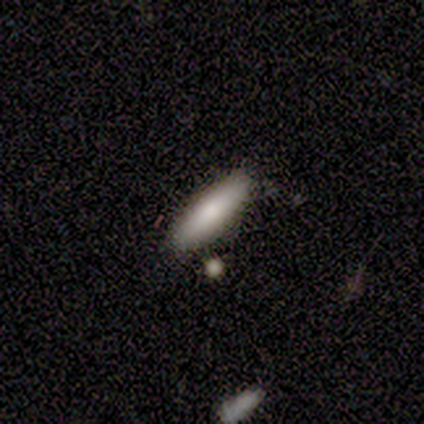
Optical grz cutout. It shows a smooth galaxy with no disk features (90%) that is cigar-shaped (78%). Merging: none (90%).